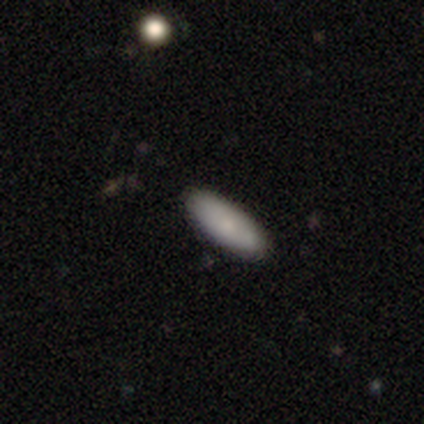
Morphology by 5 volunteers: Smooth or featured? 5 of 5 (100%) said smooth. How rounded? 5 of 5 (100%) said in between. Merging? 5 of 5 (100%) said none.